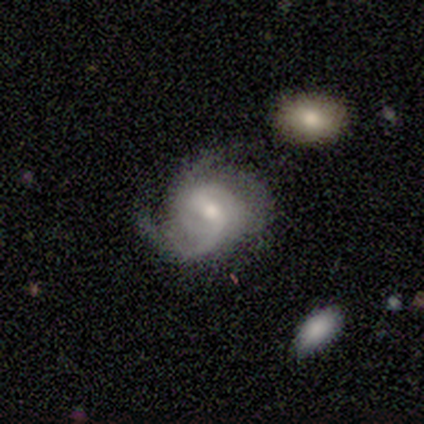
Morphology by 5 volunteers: This appears to be a featured or disk galaxy (100%) with a weak bar (60%), 2 (60%) tight (40%, tied with loose) spiral arms (100%) and a moderate central bulge (60%). Merging: none (100%).